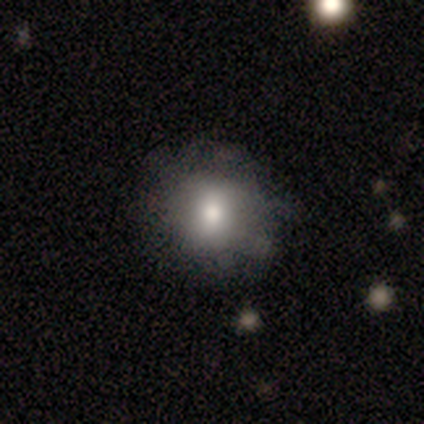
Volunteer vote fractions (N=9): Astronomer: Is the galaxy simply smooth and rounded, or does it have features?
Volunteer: smooth — 56% (runner-up: featured or disk, 44%).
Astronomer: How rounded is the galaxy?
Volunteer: round — 100%.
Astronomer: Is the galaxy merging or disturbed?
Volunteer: minor disturbance — 56% (runner-up: none, 44%).